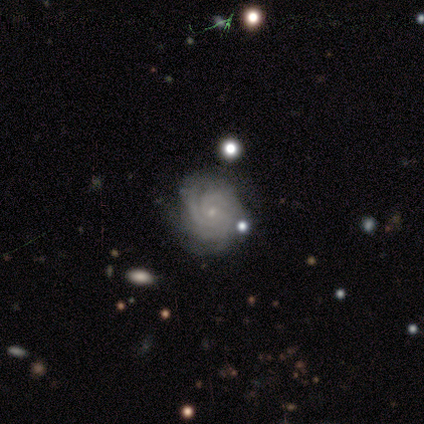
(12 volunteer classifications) Smooth or featured?
  - featured or disk: 100% *
  - smooth: 0%
  - star or artifact: 0%
Edge-on disk?
  - no: 92% *
  - yes: 8%
Bar?
  - no: 91% *
  - strong: 9%
  - weak: 0%
Spiral arms?
  - yes: 91% *
  - no: 9%
Spiral winding?
  - tight: 60% *
  - medium: 40%
  - loose: 0%
Spiral arm count?
  - 3: 50% *
  - 4: 30%
  - 2: 10%
  - can't tell: 10%
  - 1: 0%
  - more than 4: 0%
Bulge size?
  - small: 100% *
  - dominant: 0%
  - large: 0%
  - moderate: 0%
  - none: 0%
Merging?
  - none: 75% *
  - minor disturbance: 8%
  - major disturbance: 8%
  - merger: 8%